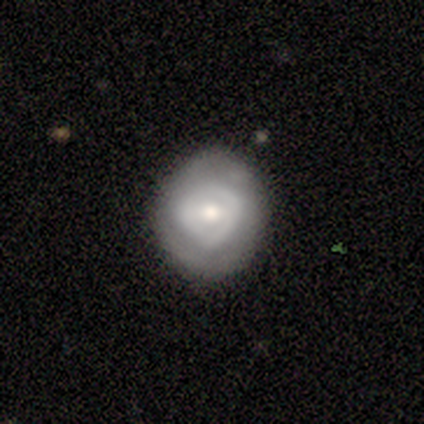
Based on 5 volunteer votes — A smooth galaxy with no disk features (60%) that is round (67%).

Vote fractions:
- Smooth or featured? smooth: 60% / featured or disk: 40% / star or artifact: 0%
- How rounded? round: 67% / in between: 33% / cigar-shaped: 0%
- Merging? none: 80% / minor disturbance: 20% / major disturbance: 0% / merger: 0%